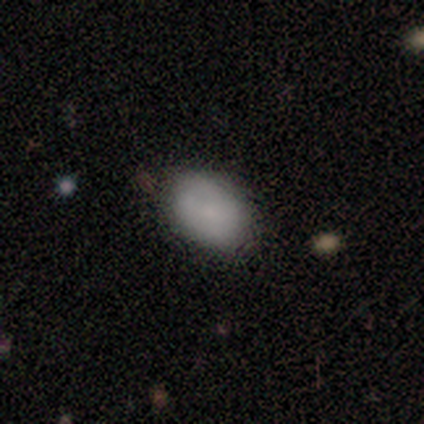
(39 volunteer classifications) Overall: smooth (90%). How rounded: in between (94%). Merging: none (74%).